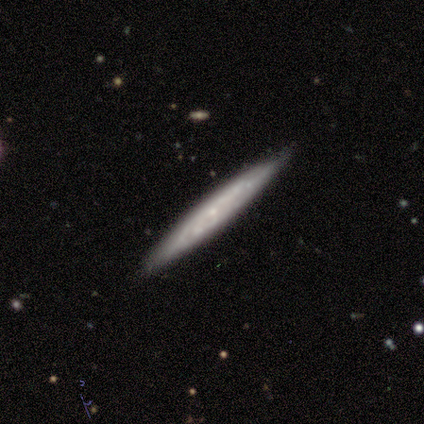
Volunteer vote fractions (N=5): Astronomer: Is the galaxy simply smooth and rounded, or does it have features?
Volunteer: featured or disk — 80%.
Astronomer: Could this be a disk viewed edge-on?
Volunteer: yes — 75%.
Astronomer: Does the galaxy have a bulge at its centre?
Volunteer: none — 67%.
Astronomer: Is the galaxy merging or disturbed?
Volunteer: none — 100%.